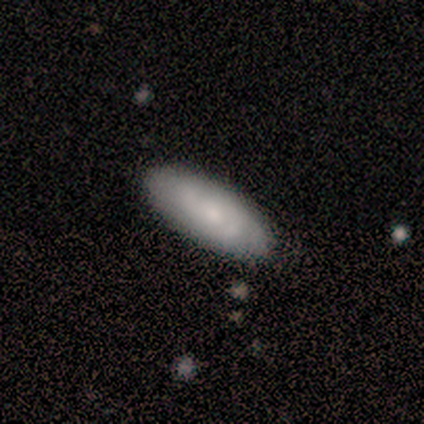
Smooth or featured?
  - smooth: 80% *
  - featured or disk: 20%
  - star or artifact: 0%
How rounded?
  - in between: 100% *
  - round: 0%
  - cigar-shaped: 0%
Merging?
  - none: 100% *
  - minor disturbance: 0%
  - major disturbance: 0%
  - merger: 0%